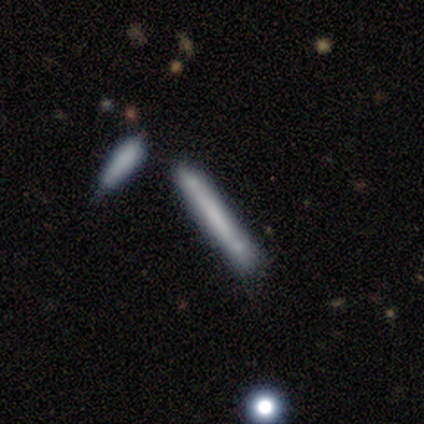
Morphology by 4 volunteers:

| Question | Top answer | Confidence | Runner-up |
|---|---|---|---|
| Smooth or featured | featured or disk | 75% | smooth (25%) |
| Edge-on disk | yes | 100% | — |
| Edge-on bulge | none | 100% | — |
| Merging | none | 75% | minor disturbance (25%) |